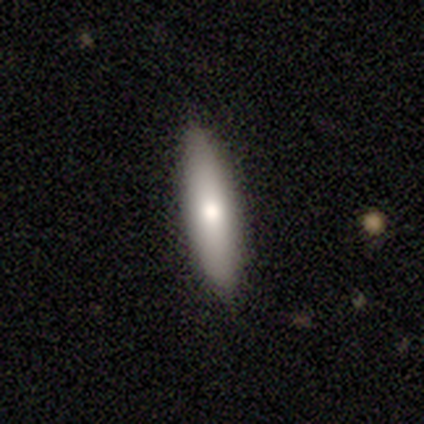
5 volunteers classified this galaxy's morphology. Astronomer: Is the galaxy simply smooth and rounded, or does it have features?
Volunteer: featured or disk — 60% (runner-up: smooth, 40%).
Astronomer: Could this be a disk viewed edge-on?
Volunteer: yes — 100%.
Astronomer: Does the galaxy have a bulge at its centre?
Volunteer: rounded — 100%.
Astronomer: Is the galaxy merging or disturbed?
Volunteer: none — 100%.